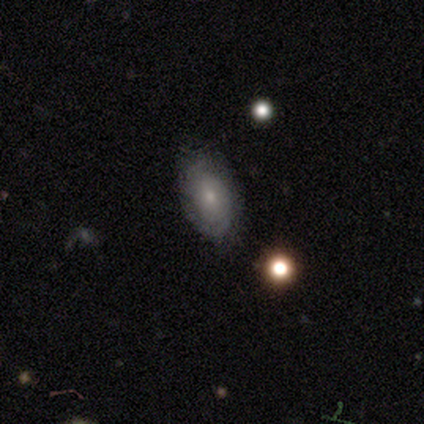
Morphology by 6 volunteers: This appears to be a featured or disk galaxy (83%) with no bar (80%), no spiral arms (60%) and a small central bulge (60%). Merging: none (100%).